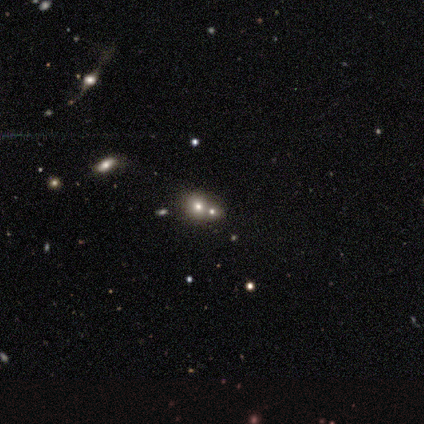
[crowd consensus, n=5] Q: Smooth or featured?
A: smooth (60%); runner-up: featured or disk (20%)
Q: How rounded?
A: round (67%); runner-up: in between (33%)
Q: Merging?
A: merger (75%); runner-up: none (25%)